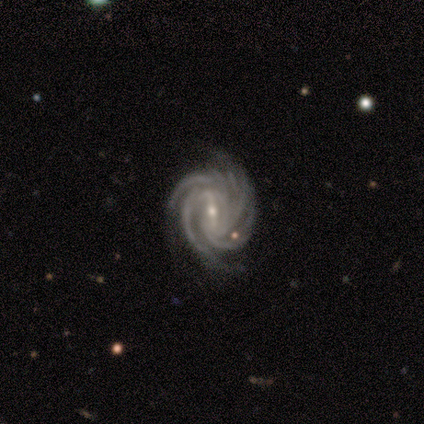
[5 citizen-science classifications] A featured or disk galaxy (80%) with a weak bar (75%), 4 (75%) tight (75%) spiral arms (100%) and a small central bulge (75%).

Vote fractions:
- Smooth or featured? featured or disk: 80% / star or artifact: 20% / smooth: 0%
- Edge-on disk? no: 100% / yes: 0%
- Bar? weak: 75% / strong: 25% / no: 0%
- Spiral arms? yes: 100% / no: 0%
- Spiral winding? tight: 75% / medium: 25% / loose: 0%
- Spiral arm count? 4: 75% / more than 4: 25% / 1: 0% / 2: 0% / 3: 0% / can't tell: 0%
- Bulge size? small: 75% / moderate: 25% / dominant: 0% / large: 0% / none: 0%
- Merging? none: 75% / minor disturbance: 25% / major disturbance: 0% / merger: 0%